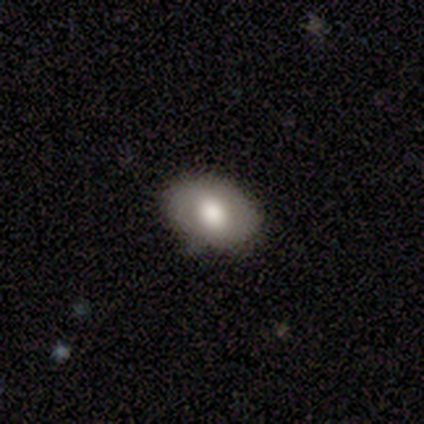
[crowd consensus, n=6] Morphology: type=smooth (50%, tied with featured or disk); roundness=in between (67%); merging=none (83%).